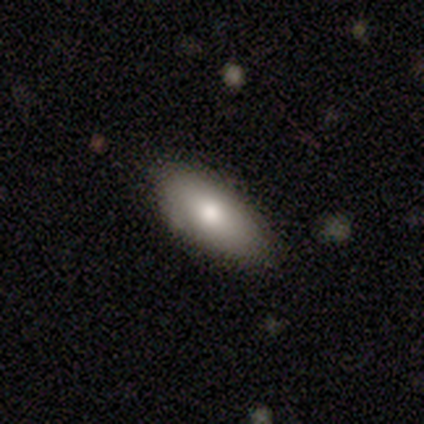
Smooth or featured? smooth (67%)
How rounded? in between (75%)
Merging? none (80%)